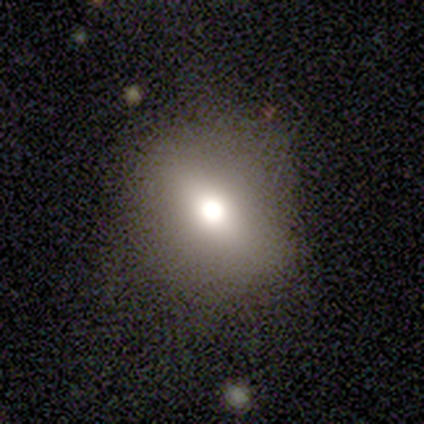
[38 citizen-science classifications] smooth-or-featured: smooth: 76% | star or artifact: 16% | featured or disk: 8%
  how-rounded: round: 59% | in between: 38% | cigar-shaped: 3%
  merging: none: 72% | minor disturbance: 22% | major disturbance: 6% | merger: 0%